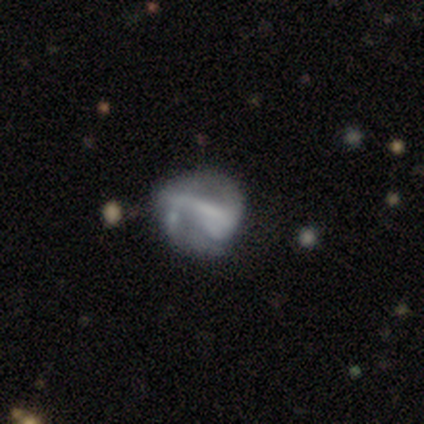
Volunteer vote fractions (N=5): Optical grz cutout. It shows a featured or disk galaxy (60%) with a strong bar (67%), no spiral arms (67%) and a dominant central bulge (33%, tied with moderate and none). Merging: major disturbance (60%).